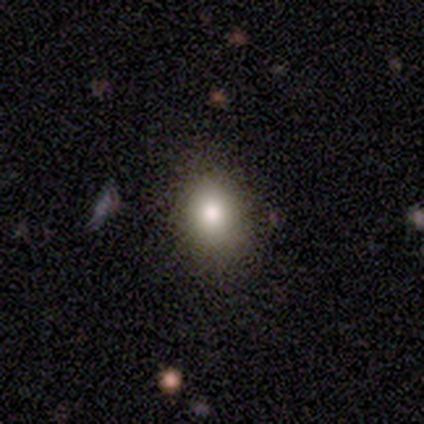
Smooth or featured? 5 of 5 (100%) said smooth. How rounded? 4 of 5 (80%) said in between. Merging? 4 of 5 (80%) said none.